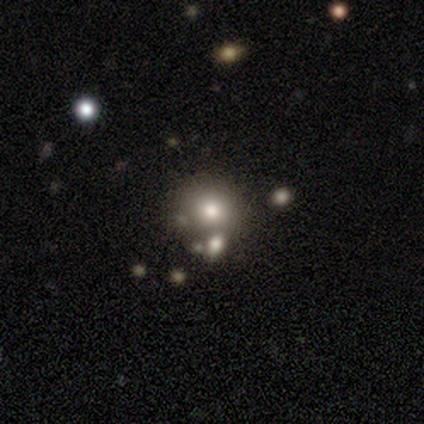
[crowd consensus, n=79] Morphology: type=smooth (81%); roundness=round (92%); merging=merger (36%).